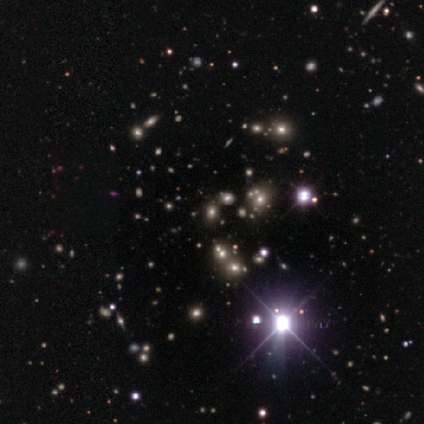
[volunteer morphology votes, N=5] A star or artifact, not a galaxy (60%).